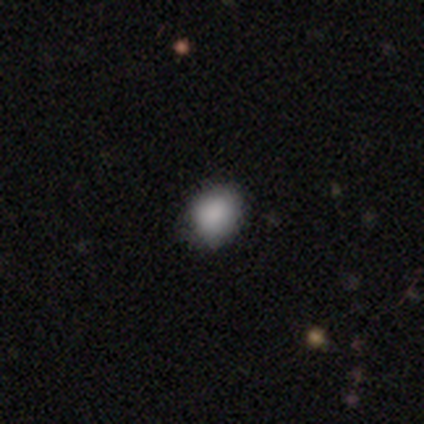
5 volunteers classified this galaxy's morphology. Smooth or featured: smooth — 100%
How rounded: round — 80% (in between — 20%)
Merging: none — 80% (minor disturbance — 20%)